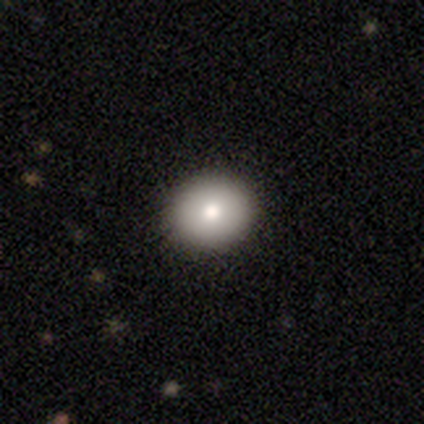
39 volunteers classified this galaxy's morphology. A smooth galaxy with no disk features (92%) that is round (69%). Merging: none (97%).